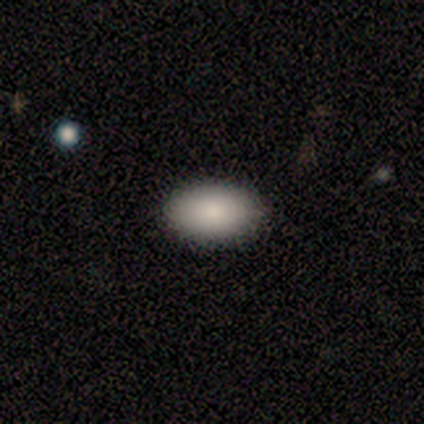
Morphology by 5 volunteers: Smooth or featured? 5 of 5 (100%) said smooth. How rounded? 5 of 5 (100%) said in between. Merging? 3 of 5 (60%) said none.